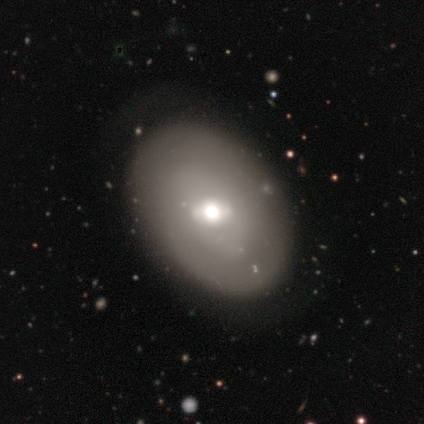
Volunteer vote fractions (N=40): Volunteers were most divided on "smooth or featured": smooth: 52%, featured or disk: 40%, star or artifact: 8%. More confident: how rounded — in between (95%); merging — none (70%).